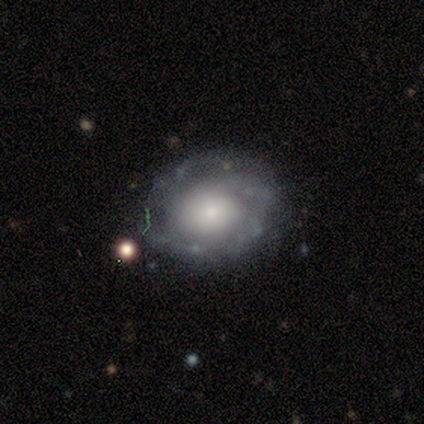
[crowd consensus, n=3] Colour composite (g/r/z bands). It shows a featured or disk galaxy (67%) with no bar (100%), loose (100%) spiral arms (50%, tied with no) and a moderate central bulge (100%). Merging: none (33%, tied with minor disturbance and major disturbance).